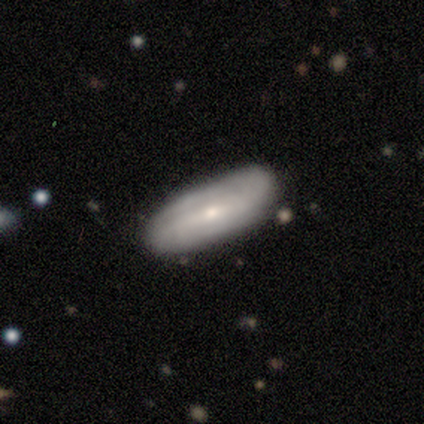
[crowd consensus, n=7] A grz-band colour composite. It shows a featured or disk galaxy (57%) with a strong bar (50%, tied with no), no spiral arms (75%) and a small central bulge (50%). Merging: minor disturbance (57%).